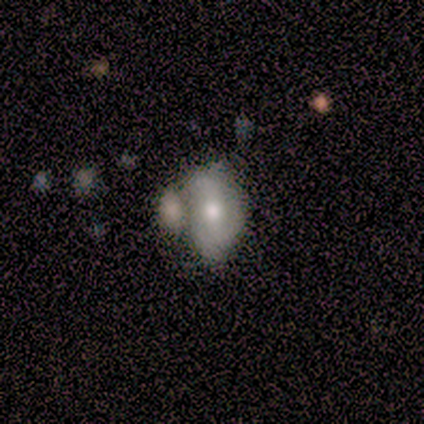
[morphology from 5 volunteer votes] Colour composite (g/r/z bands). It shows a featured or disk galaxy (60%) with a weak bar (67%), 2 (50%, tied with 3) medium (100%) spiral arms (67%) and a moderate central bulge (67%). Merging: major disturbance (40%, tied with merger).